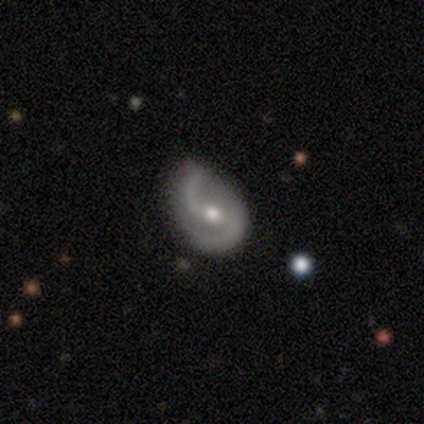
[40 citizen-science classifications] Smooth or featured? featured or disk (85%)
Edge-on disk? no (100%)
Bar? weak (47%)
Spiral arms? yes (97%)
Spiral winding? loose (52%)
Spiral arm count? 2 (97%)
Bulge size? moderate (62%)
Merging? minor disturbance (46%)